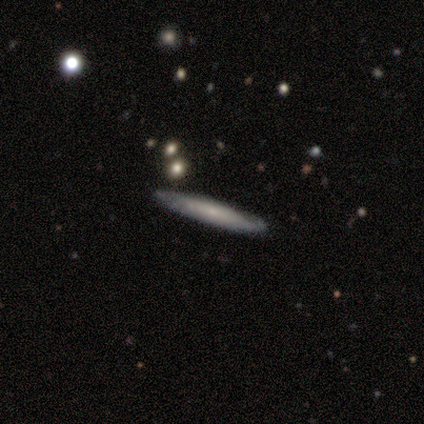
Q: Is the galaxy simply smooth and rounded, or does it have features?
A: featured or disk — 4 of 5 (80%).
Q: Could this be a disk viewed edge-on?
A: yes — 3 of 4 (75%).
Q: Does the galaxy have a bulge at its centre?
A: none — 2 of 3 (67%).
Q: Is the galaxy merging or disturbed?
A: none — 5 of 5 (100%).